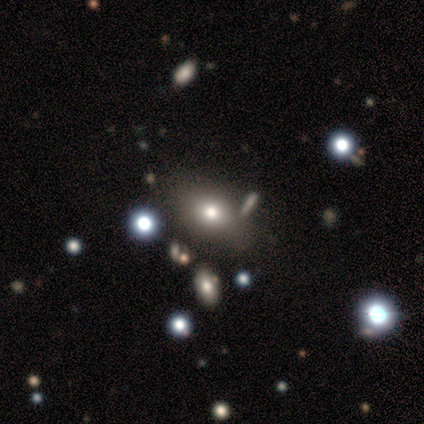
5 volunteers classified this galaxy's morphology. Q: Smooth or featured?
A: smooth (100%)
Q: How rounded?
A: in between (80%); runner-up: round (20%)
Q: Merging?
A: none (60%); runner-up: minor disturbance (20%)